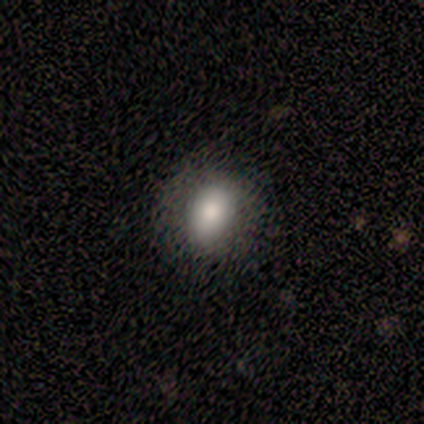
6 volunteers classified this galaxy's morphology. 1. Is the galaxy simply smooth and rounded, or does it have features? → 100% smooth, 0% featured or disk, 0% star or artifact.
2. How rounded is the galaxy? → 67% in between, 33% round, 0% cigar-shaped.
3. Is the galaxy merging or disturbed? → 100% none, 0% minor disturbance, 0% major disturbance, 0% merger.